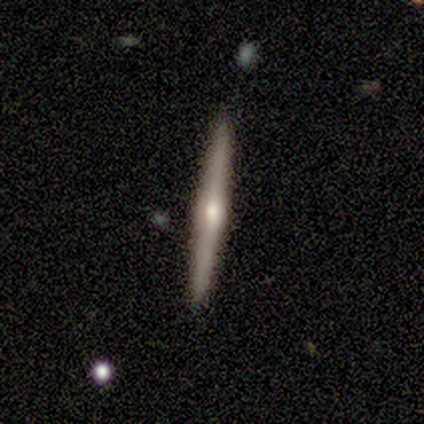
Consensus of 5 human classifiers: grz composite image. It shows a featured or disk galaxy (80%) viewed edge-on (100%) with a rounded central bulge (75%). Merging: none (80%).